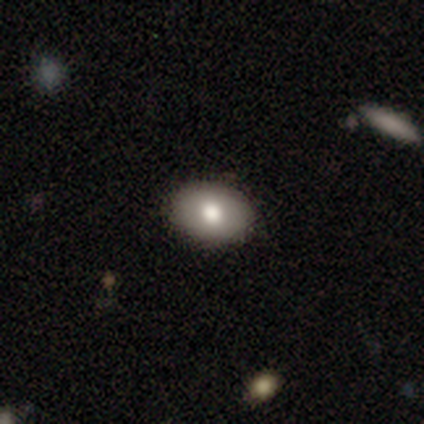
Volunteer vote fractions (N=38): smooth_or_featured: smooth (p=0.82) [alt: star or artifact p=0.11]
how_rounded: in between (p=0.77) [alt: round p=0.23]
merging: none (p=1.00)